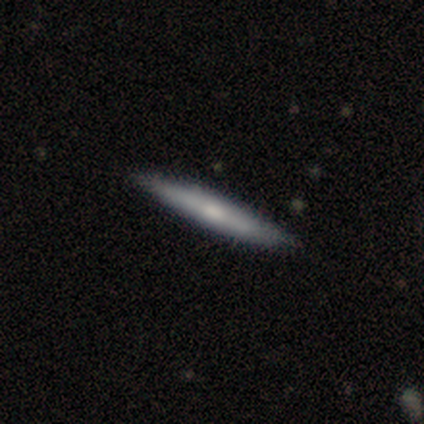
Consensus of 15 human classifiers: A smooth galaxy with no disk features (60%) that is cigar-shaped (100%).

Vote fractions:
- Smooth or featured? smooth: 60% / featured or disk: 40% / star or artifact: 0%
- How rounded? cigar-shaped: 100% / round: 0% / in between: 0%
- Merging? none: 93% / minor disturbance: 7% / major disturbance: 0% / merger: 0%